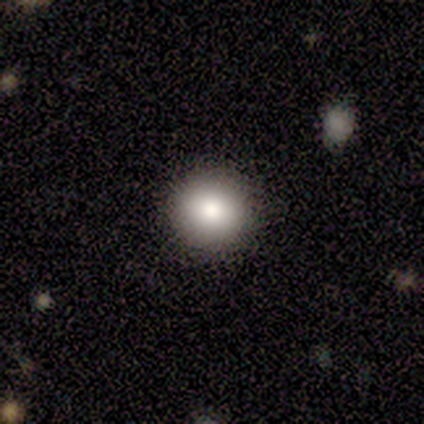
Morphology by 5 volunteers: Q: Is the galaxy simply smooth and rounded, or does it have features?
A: smooth — 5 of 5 (100%).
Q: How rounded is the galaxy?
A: round — 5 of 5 (100%).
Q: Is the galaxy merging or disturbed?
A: none — 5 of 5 (100%).